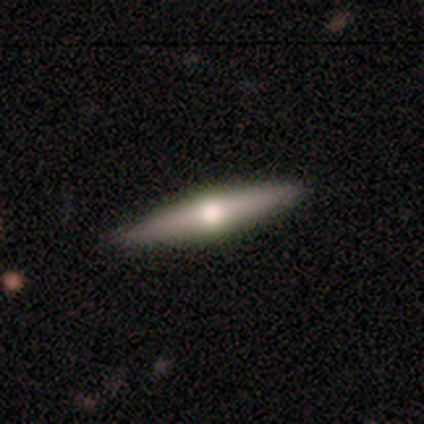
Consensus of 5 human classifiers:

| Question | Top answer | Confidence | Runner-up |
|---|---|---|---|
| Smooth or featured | smooth | 60% | featured or disk (40%) |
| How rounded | cigar-shaped | 100% | — |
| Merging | none | 80% | major disturbance (20%) |